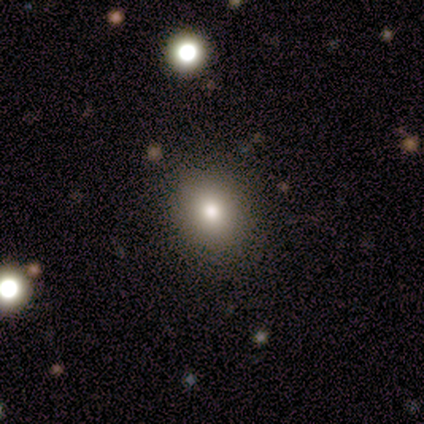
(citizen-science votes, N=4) Morphology: type=smooth (75%); roundness=round (100%); merging=none (100%).